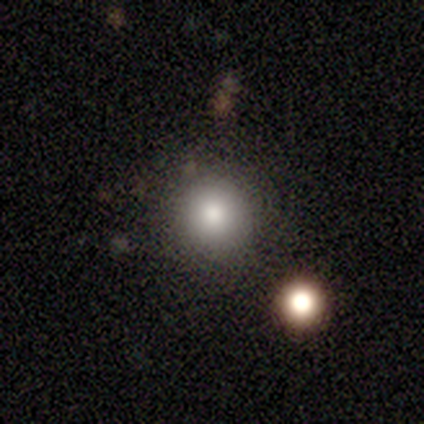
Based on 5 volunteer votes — Q: Smooth or featured?
A: smooth (80%); runner-up: featured or disk (20%)
Q: How rounded?
A: round (75%); runner-up: in between (25%)
Q: Merging?
A: none (100%)